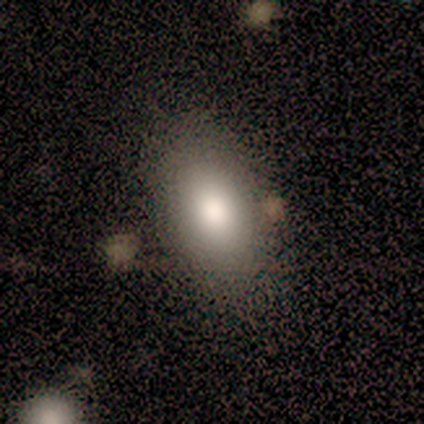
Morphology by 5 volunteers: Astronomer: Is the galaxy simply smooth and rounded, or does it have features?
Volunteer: smooth — 60% (runner-up: featured or disk, 40%).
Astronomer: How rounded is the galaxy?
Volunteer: in between — 100%.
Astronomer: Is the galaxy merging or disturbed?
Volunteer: none — 100%.